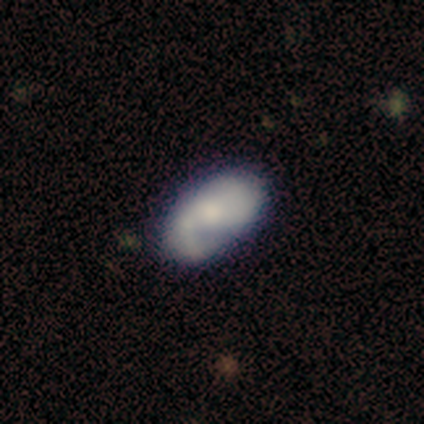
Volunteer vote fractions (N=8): smooth 100%, featured or disk 0%, star or artifact 0%. Down the decision tree: how rounded — in between (100%); merging — none (50%).